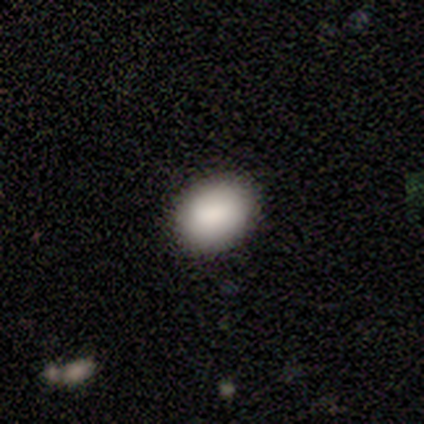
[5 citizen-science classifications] Overall: smooth (100%). How rounded: in between (60%; round 40%). Merging: none (100%).